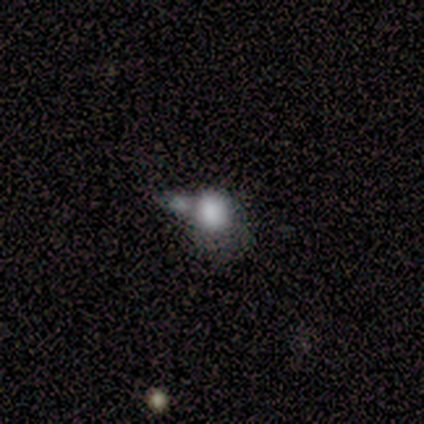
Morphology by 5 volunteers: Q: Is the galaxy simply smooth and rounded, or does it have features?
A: smooth — 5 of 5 (100%).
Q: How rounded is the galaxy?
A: round — 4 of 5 (80%).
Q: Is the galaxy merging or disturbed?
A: merger — 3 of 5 (60%).